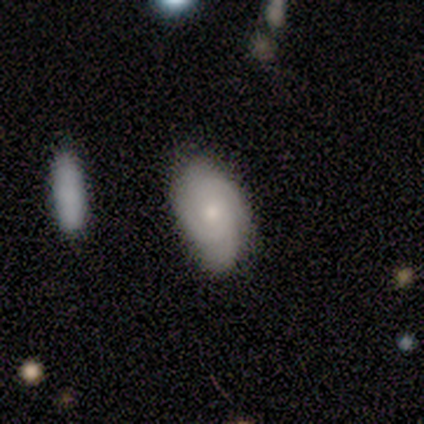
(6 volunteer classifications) featured or disk 67%, smooth 33%, star or artifact 0%. Down the decision tree: edge-on disk — no (100%); bar — no (100%); spiral arms — yes (100%); spiral arm count — 3 (50%); spiral winding — tight (75%); bulge size — moderate (75%); merging — none (83%).